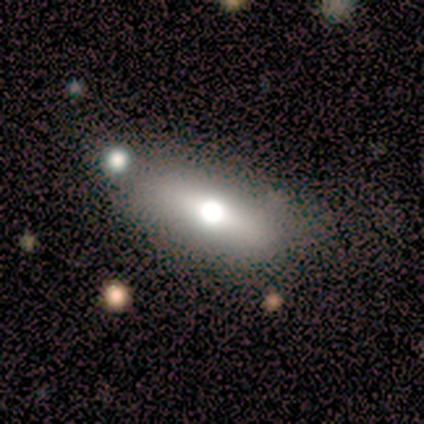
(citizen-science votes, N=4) A smooth galaxy with no disk features (75%) that is in between round and cigar-shaped (100%). Merging: none (67%).